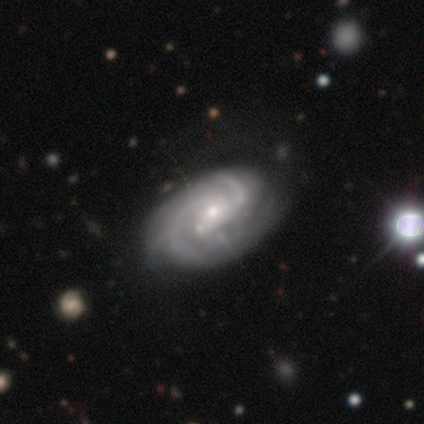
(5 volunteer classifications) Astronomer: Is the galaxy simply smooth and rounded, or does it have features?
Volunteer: featured or disk — 100%.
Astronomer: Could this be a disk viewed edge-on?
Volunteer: no — 100%.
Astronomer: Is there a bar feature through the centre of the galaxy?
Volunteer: no — 100%.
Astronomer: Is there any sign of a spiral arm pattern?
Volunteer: yes — 80%.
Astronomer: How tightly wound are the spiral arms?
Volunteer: tight — 50%, tied with medium at 50%.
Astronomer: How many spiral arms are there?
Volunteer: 2 — 50%, tied with 3 at 50%.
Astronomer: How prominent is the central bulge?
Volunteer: small — 80%.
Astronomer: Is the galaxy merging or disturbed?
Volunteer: none — 80%.